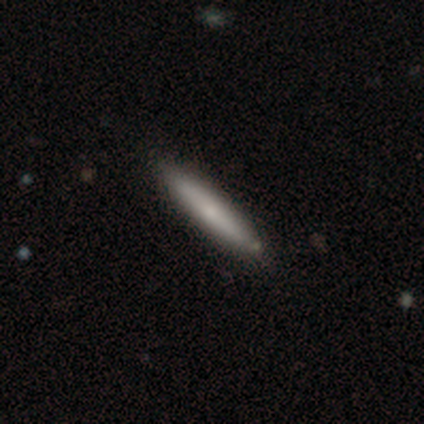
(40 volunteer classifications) smooth-or-featured: smooth: 65% | featured or disk: 35% | star or artifact: 0%
  how-rounded: cigar-shaped: 88% | in between: 12% | round: 0%
  merging: none: 68% | merger: 5% | minor disturbance: 2% | major disturbance: 0%